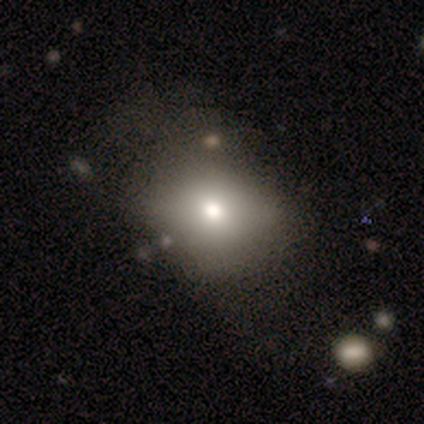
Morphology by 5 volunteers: A smooth galaxy with no disk features (80%) that is round (50%, tied with in between). Merging: minor disturbance (60%).